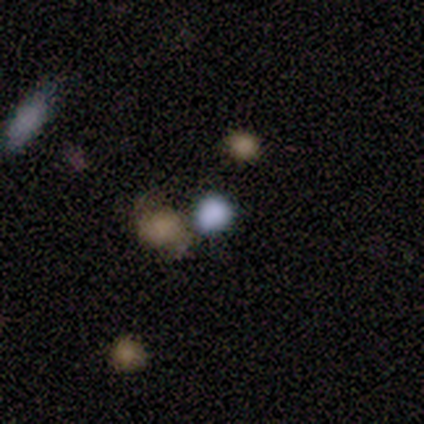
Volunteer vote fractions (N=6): This appears to be a smooth galaxy with no disk features (83%) that is round (80%). Merging: none (80%).